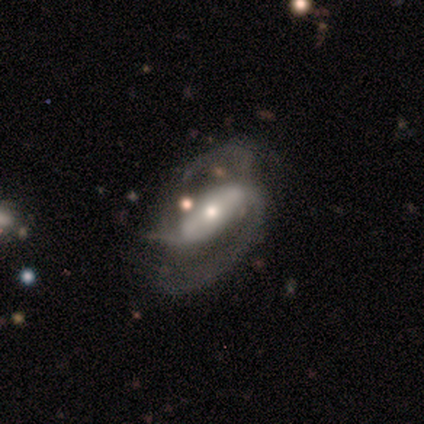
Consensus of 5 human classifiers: Volunteers were most divided on "bulge size" (2-way tie): moderate: 50%, small: 50%, dominant: 0%, large: 0%, none: 0%. More confident: edge-on disk — no (100%); spiral arm count — 2 (100%); smooth or featured — featured or disk (80%); spiral arms — yes (75%); spiral winding — medium (67%); merging — major disturbance (60%); bar — weak (50%).